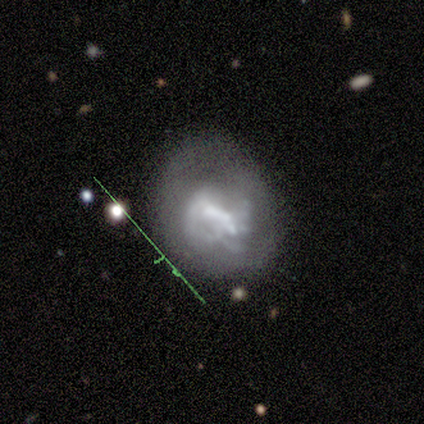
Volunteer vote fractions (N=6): A featured or disk galaxy (50%) with no bar (67%), no spiral arms (67%) and no central bulge (100%). Merging: none (60%).